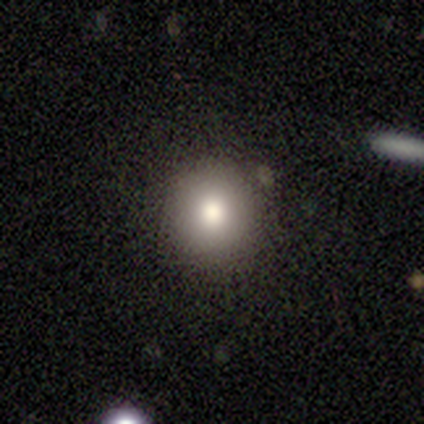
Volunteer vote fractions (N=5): smooth_or_featured: smooth (p=0.60) [alt: featured or disk p=0.20]
how_rounded: round (p=1.00)
merging: none (p=1.00)